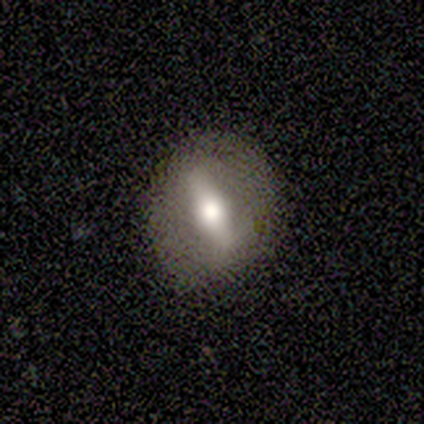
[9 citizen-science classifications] Smooth or featured?
  - featured or disk: 56% *
  - smooth: 33%
  - star or artifact: 11%
Edge-on disk?
  - no: 80% *
  - yes: 20%
Bar?
  - strong: 75% *
  - weak: 25%
  - no: 0%
Spiral arms?
  - no: 75% *
  - yes: 25%
Bulge size?
  - moderate: 75% *
  - large: 25%
  - dominant: 0%
  - small: 0%
  - none: 0%
Merging?
  - none: 75% *
  - minor disturbance: 12%
  - major disturbance: 12%
  - merger: 0%